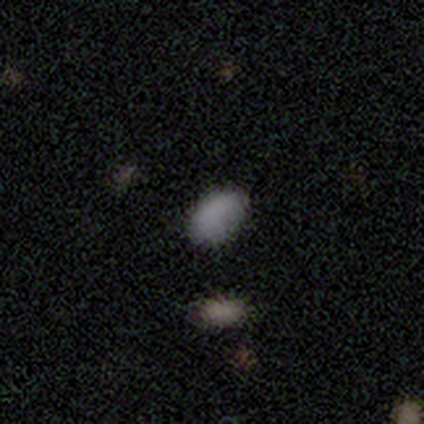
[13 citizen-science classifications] Smooth or featured? smooth (85%)
How rounded? in between (73%)
Merging? none (83%)